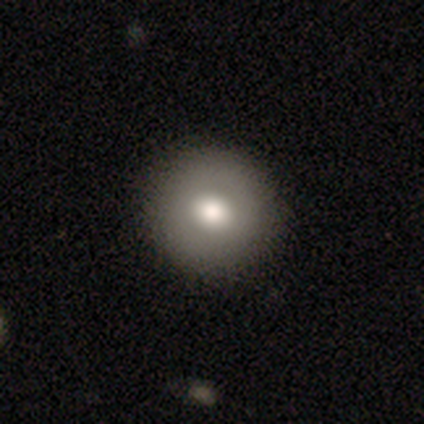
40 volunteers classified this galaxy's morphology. A smooth galaxy with no disk features (72%) that is round (97%). Merging: none (91%).